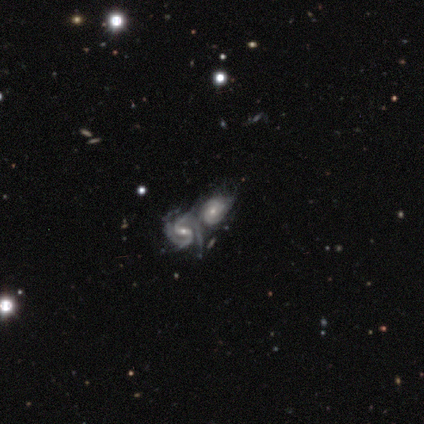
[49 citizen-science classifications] Smooth or featured: featured or disk — 88% (smooth — 8%)
Edge-on disk: no — 98% (yes — 2%)
Bar: weak — 38% (no — 36%)
Spiral arms: yes — 90% (no — 10%)
Spiral winding: tight — 58% (medium — 42%)
Spiral arm count: 2 — 76% (can't tell — 13%)
Bulge size: small — 62% (moderate — 33%)
Merging: merger — 87% (none — 6%)